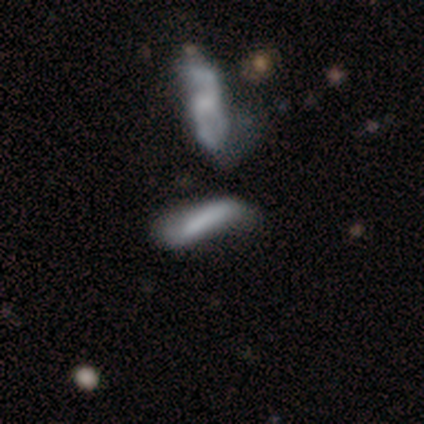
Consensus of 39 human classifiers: This is possibly a smooth galaxy (59%). How rounded: clearly cigar-shaped (83%). Merging: marginally none (39%).